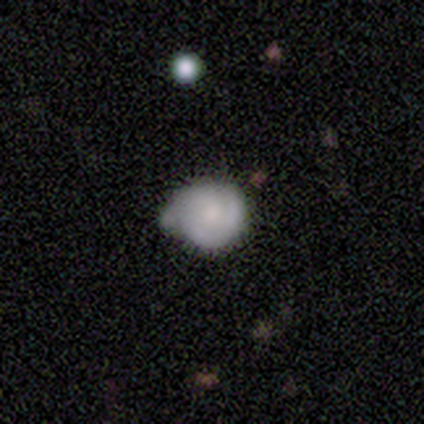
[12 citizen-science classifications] Volunteers were most divided on "merging" (2-way tie): none: 33%, minor disturbance: 33%, major disturbance: 17%, merger: 17%. More confident: how rounded — round (88%); smooth or featured — smooth (67%).